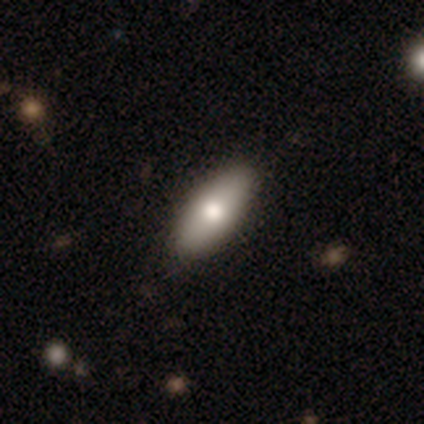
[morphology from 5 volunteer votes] smooth-or-featured: smooth: 100% | featured or disk: 0% | star or artifact: 0%
  how-rounded: in between: 80% | cigar-shaped: 20% | round: 0%
  merging: none: 100% | minor disturbance: 0% | major disturbance: 0% | merger: 0%